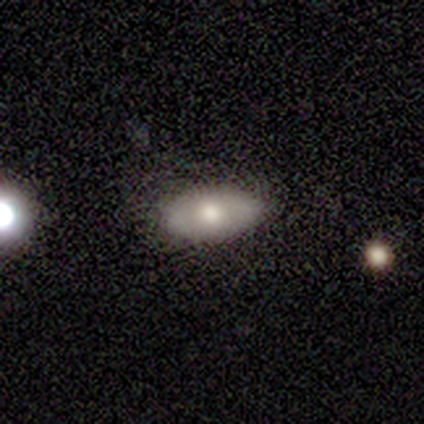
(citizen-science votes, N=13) smooth-or-featured: smooth: 77% | featured or disk: 23% | star or artifact: 0%
  how-rounded: in between: 100% | round: 0% | cigar-shaped: 0%
  merging: none: 85% | minor disturbance: 15% | major disturbance: 0% | merger: 0%